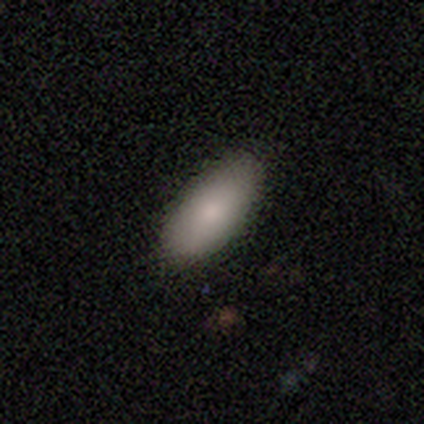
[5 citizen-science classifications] Smooth or featured? smooth (100%)
How rounded? in between (80%)
Merging? none (100%)